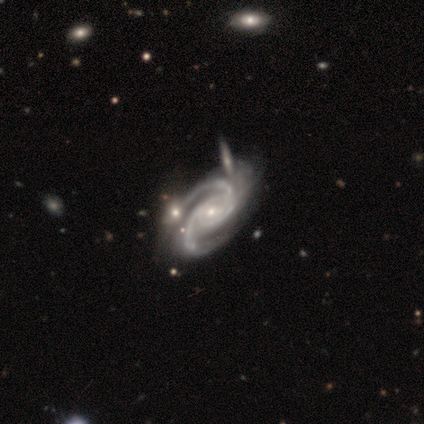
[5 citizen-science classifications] Smooth or featured? 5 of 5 (100%) said featured or disk. Edge-on disk? 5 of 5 (100%) said no. Bar? 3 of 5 (60%) said no. Spiral arms? 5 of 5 (100%) said yes. Spiral winding? 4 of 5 (80%) said medium. Spiral arm count? 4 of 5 (80%) said 2. Bulge size? 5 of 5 (100%) said small. Merging? 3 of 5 (60%) said minor disturbance.